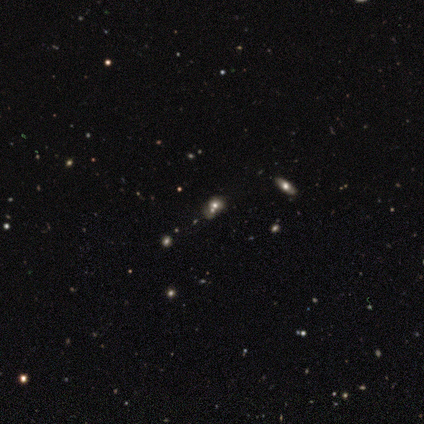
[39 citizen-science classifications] smooth-or-featured: smooth: 46% | star or artifact: 38% | featured or disk: 15%
  how-rounded: in between: 44% | round: 39% | cigar-shaped: 17%
  merging: none: 50% | merger: 33% | minor disturbance: 12% | major disturbance: 4%